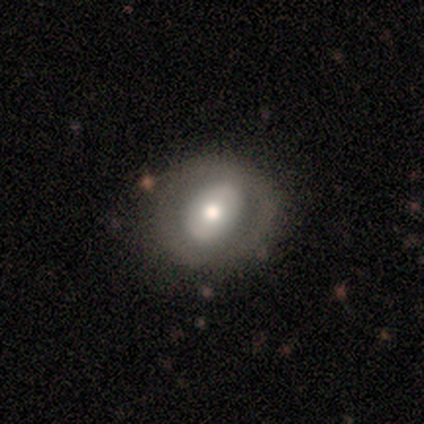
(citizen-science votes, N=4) A featured or disk galaxy (50%) with no bar (100%), no spiral arms (100%) and a moderate central bulge (100%).

Vote fractions:
- Smooth or featured? featured or disk: 50% / smooth: 25% / star or artifact: 25%
- Edge-on disk? no: 100% / yes: 0%
- Bar? no: 100% / strong: 0% / weak: 0%
- Spiral arms? no: 100% / yes: 0%
- Bulge size? moderate: 100% / dominant: 0% / large: 0% / small: 0% / none: 0%
- Merging? none: 33% (tied) / minor disturbance: 33% (tied) / major disturbance: 33% (tied) / merger: 0%